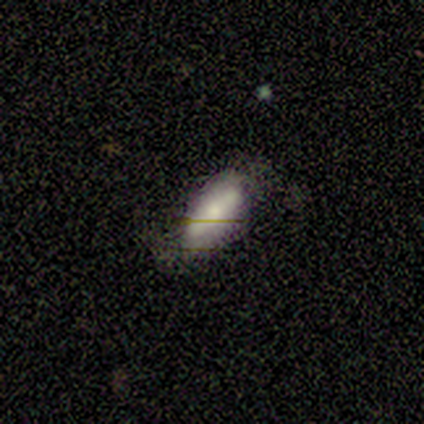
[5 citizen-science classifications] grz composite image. It shows a smooth galaxy with no disk features (60%) that is in between round and cigar-shaped (67%). Merging: none (75%).